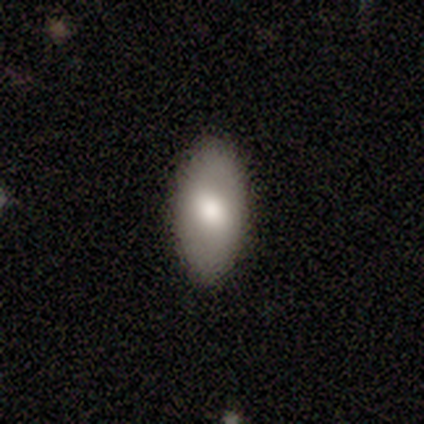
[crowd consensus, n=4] A smooth galaxy with no disk features (75%) that is in between round and cigar-shaped (100%).

Vote fractions:
- Smooth or featured? smooth: 75% / featured or disk: 25% / star or artifact: 0%
- How rounded? in between: 100% / round: 0% / cigar-shaped: 0%
- Merging? none: 100% / minor disturbance: 0% / major disturbance: 0% / merger: 0%